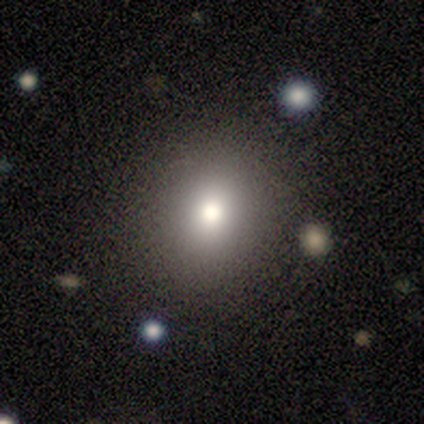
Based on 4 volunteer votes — Smooth or featured: smooth — 100%
How rounded: round — 100%
Merging: none — 100%